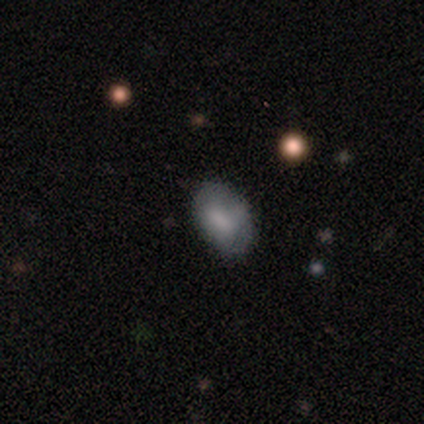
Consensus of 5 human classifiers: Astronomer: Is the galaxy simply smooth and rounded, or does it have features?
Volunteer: smooth — 60% (runner-up: featured or disk, 40%).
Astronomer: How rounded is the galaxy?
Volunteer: in between — 100%.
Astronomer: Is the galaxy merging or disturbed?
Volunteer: none — 80%.